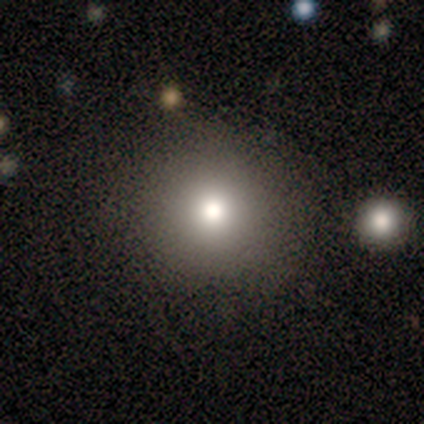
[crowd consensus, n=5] A smooth galaxy with no disk features (80%) that is round (75%).

Vote fractions:
- Smooth or featured? smooth: 80% / featured or disk: 20% / star or artifact: 0%
- How rounded? round: 75% / in between: 25% / cigar-shaped: 0%
- Merging? none: 100% / minor disturbance: 0% / major disturbance: 0% / merger: 0%